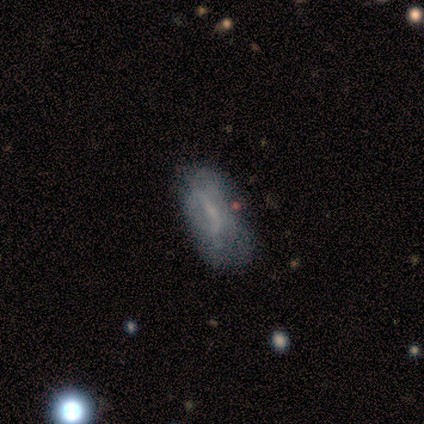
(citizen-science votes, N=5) Volunteers were most divided on "smooth or featured" (2-way tie): smooth: 40%, featured or disk: 40%, star or artifact: 20%; "how rounded" (2-way tie): in between: 50%, cigar-shaped: 50%, round: 0%. More confident: merging — minor disturbance (75%).